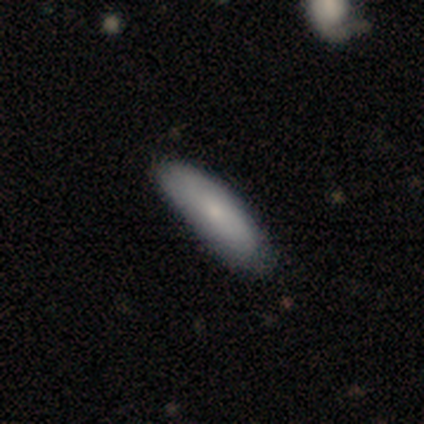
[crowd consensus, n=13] This appears to be a smooth galaxy with no disk features (85%) that is in between round and cigar-shaped (55%). Merging: none (62%).